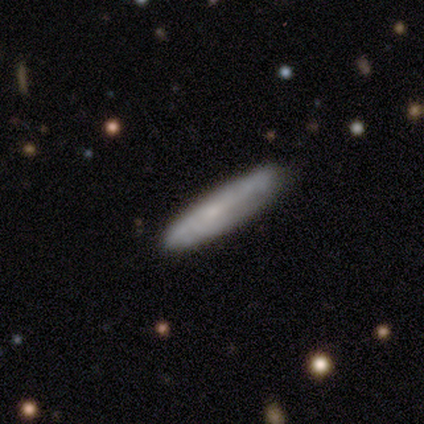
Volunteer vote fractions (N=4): Smooth or featured? smooth (100%)
How rounded? cigar-shaped (100%)
Merging? minor disturbance (75%)